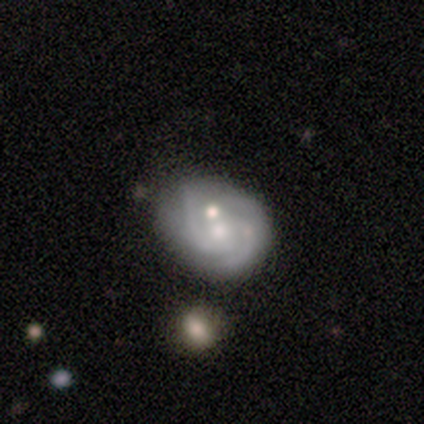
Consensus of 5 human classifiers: A featured or disk galaxy (60%) with a weak bar (50%, tied with no), 3 (50%, tied with can't tell) tight (100%) spiral arms (100%) and a small central bulge (100%).

Vote fractions:
- Smooth or featured? featured or disk: 60% / smooth: 40% / star or artifact: 0%
- Edge-on disk? no: 67% / yes: 33%
- Bar? weak: 50% (tied) / no: 50% (tied) / strong: 0%
- Spiral arms? yes: 100% / no: 0%
- Spiral winding? tight: 100% / medium: 0% / loose: 0%
- Spiral arm count? 3: 50% (tied) / can't tell: 50% (tied) / 1: 0% / 2: 0% / 4: 0% / more than 4: 0%
- Bulge size? small: 100% / dominant: 0% / large: 0% / moderate: 0% / none: 0%
- Merging? minor disturbance: 40% (tied) / merger: 40% (tied) / none: 20% / major disturbance: 0%